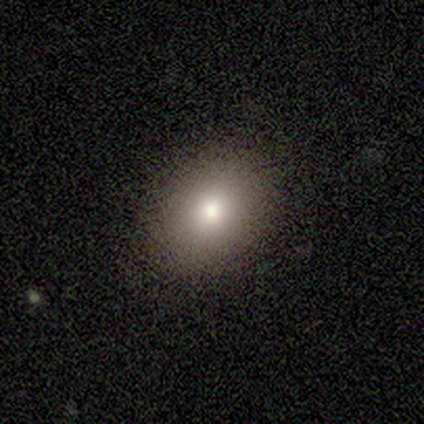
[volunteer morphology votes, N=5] This appears to be a smooth galaxy with no disk features (60%) that is in between round and cigar-shaped (67%). Merging: none (100%).